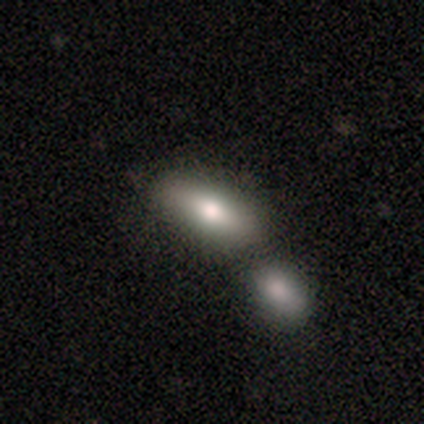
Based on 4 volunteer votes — Volunteers were most divided on "how rounded" (2-way tie): in between: 50%, cigar-shaped: 50%, round: 0%. More confident: merging — none (100%); smooth or featured — smooth (50%).